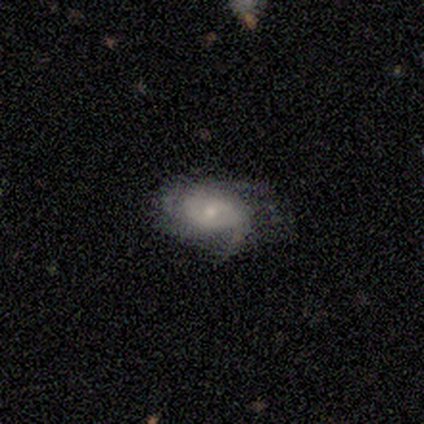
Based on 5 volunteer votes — This appears to be a featured or disk galaxy (100%) with no bar (80%), 1 (25%, tied with 3, 4 and can't tell) tight (50%, tied with medium) spiral arms (80%) and a small central bulge (100%). Merging: none (60%).